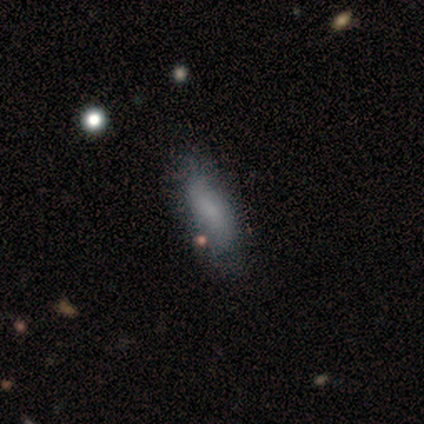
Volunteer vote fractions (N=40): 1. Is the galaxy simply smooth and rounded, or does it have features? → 70% smooth, 28% featured or disk, 2% star or artifact.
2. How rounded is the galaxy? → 82% in between, 18% cigar-shaped, 0% round.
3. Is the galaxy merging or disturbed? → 67% none, 5% minor disturbance, 3% major disturbance, 3% merger.